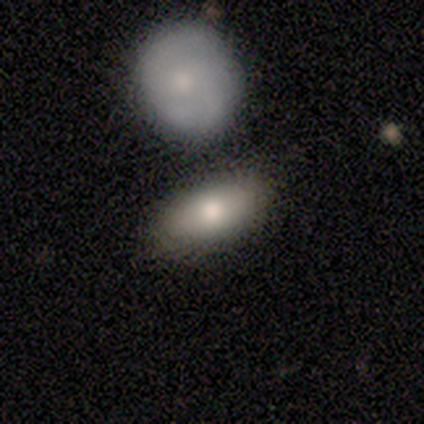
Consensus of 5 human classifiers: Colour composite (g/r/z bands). It shows a smooth galaxy with no disk features (80%) that is in between round and cigar-shaped (75%). Merging: none (100%).